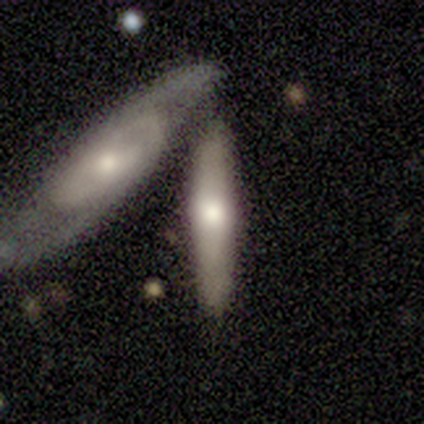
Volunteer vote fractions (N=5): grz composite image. It shows a featured or disk galaxy (100%) viewed edge-on (80%) with a rounded central bulge (50%). Merging: none (80%).